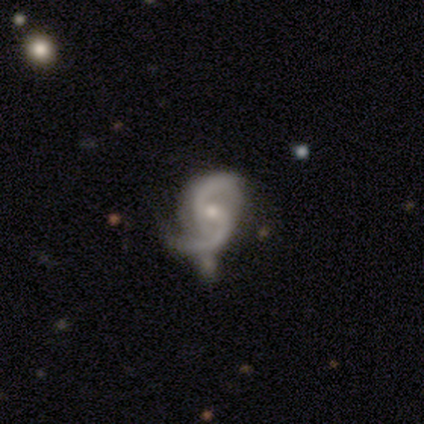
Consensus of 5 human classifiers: This appears to be a featured or disk galaxy (80%) with no bar (50%), 2 (100%) loose (75%) spiral arms (100%) and a small central bulge (75%). Merging: major disturbance (60%).